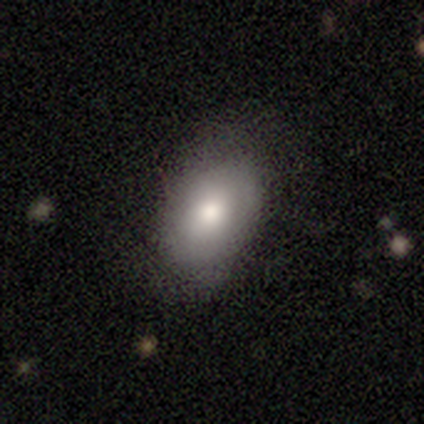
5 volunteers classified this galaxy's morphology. This is likely a smooth galaxy (60%). How rounded: likely in between (67%). Merging: likely none (75%).